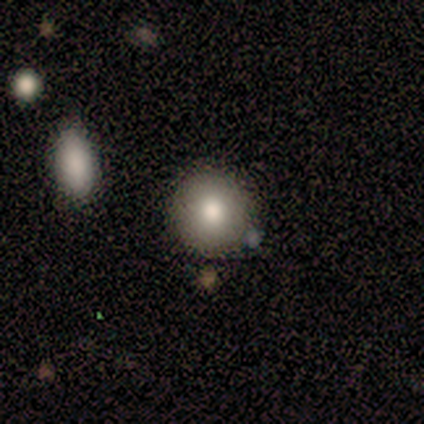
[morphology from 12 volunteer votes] Q: Smooth or featured?
A: smooth (67%); runner-up: featured or disk (25%)
Q: How rounded?
A: round (75%); runner-up: in between (25%)
Q: Merging?
A: none (91%); runner-up: minor disturbance (9%)